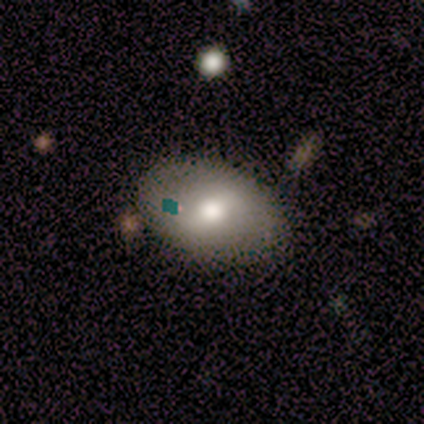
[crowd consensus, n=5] This appears to be a smooth galaxy with no disk features (80%) that is in between round and cigar-shaped (100%). Merging: none (75%).